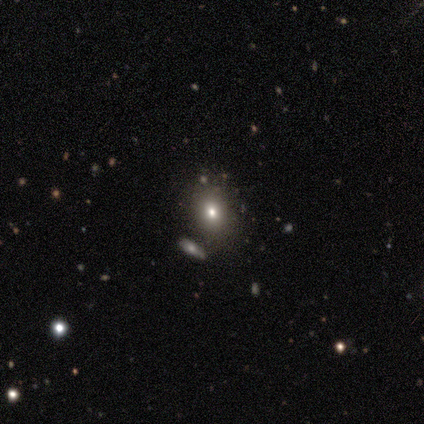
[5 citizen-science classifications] Q: Smooth or featured?
A: smooth (60%); runner-up: star or artifact (40%)
Q: How rounded?
A: in between (100%)
Q: Merging?
A: none (100%)